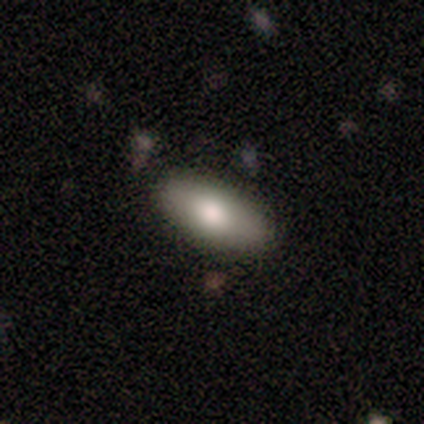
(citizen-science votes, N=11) Smooth or featured?
  - smooth: 91% *
  - featured or disk: 9%
  - star or artifact: 0%
How rounded?
  - in between: 80% *
  - cigar-shaped: 20%
  - round: 0%
Merging?
  - none: 91% *
  - minor disturbance: 9%
  - major disturbance: 0%
  - merger: 0%